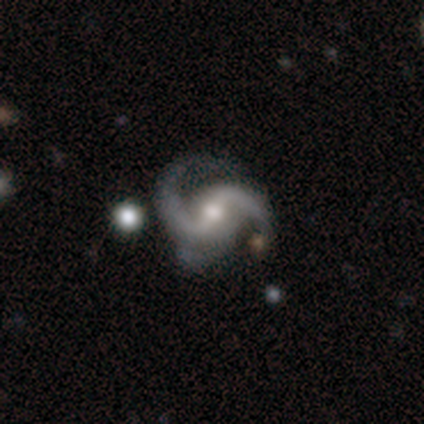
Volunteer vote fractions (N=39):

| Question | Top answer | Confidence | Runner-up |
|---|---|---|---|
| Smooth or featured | featured or disk | 95% | smooth (3%) |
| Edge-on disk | no | 100% | — |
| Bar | weak | 46% | strong (27%) |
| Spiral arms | yes | 100% | — |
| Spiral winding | medium | 76% | loose (19%) |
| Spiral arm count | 2 | 84% | 3 (16%) |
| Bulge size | moderate | 59% | small (30%) |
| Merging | none | 47% | minor disturbance (42%) |